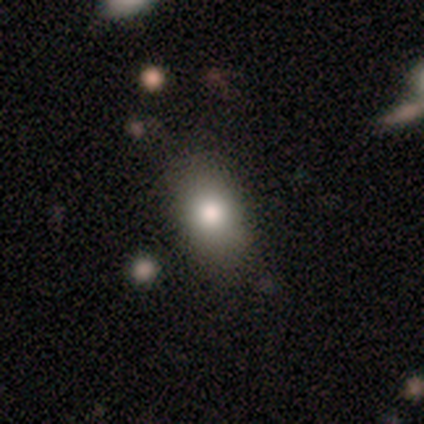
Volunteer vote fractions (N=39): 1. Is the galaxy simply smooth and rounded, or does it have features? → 74% smooth, 13% featured or disk, 13% star or artifact.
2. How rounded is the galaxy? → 83% in between, 14% round, 3% cigar-shaped.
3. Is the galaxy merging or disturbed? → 91% none, 9% minor disturbance, 0% major disturbance, 0% merger.